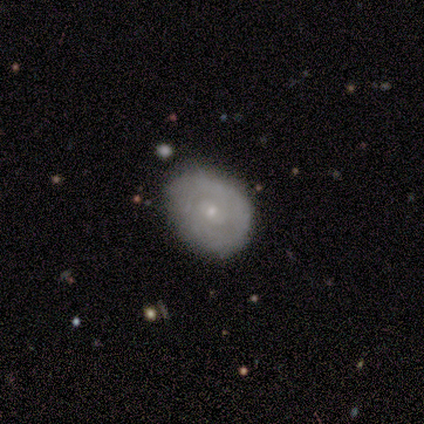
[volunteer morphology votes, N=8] A featured or disk galaxy (75%) with no bar (67%), tight (75%) spiral arms (67%) and a small central bulge (67%). Merging: none (100%).